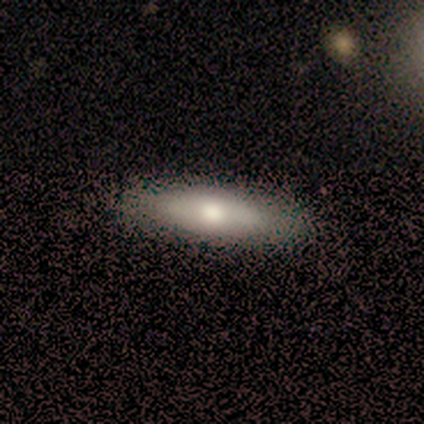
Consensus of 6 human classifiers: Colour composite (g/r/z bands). It shows a smooth galaxy with no disk features (50%) that is in between round and cigar-shaped (67%). Merging: none (75%).